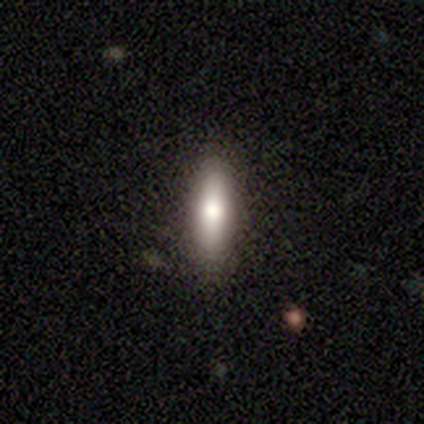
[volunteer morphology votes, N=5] This appears to be a smooth galaxy with no disk features (100%) that is cigar-shaped (60%). Merging: none (100%).